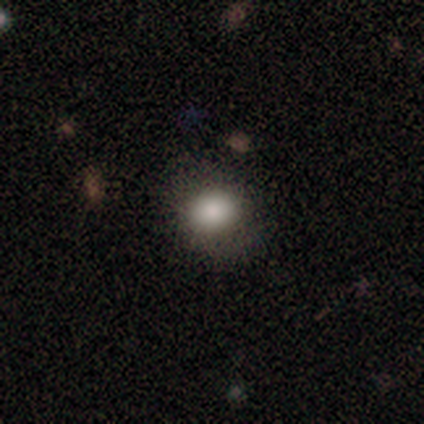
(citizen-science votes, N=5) Smooth or featured? smooth (100%)
How rounded? in between (80%)
Merging? none (80%)